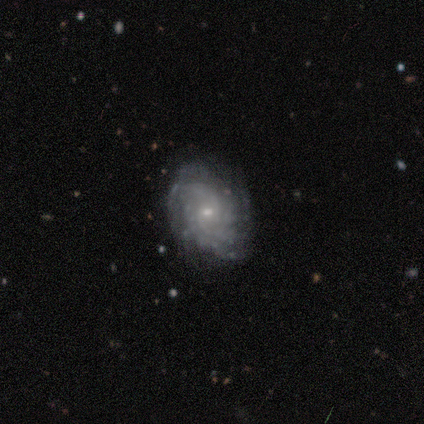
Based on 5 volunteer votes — Smooth or featured? 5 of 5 (100%) said featured or disk. Edge-on disk? 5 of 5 (100%) said no. Bar? 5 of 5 (100%) said weak. Spiral arms? 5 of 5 (100%) said yes. Spiral winding? 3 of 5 (60%) said tight. Spiral arm count? 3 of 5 (60%) said can't tell. Bulge size? 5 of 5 (100%) said small. Merging? 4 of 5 (80%) said none.